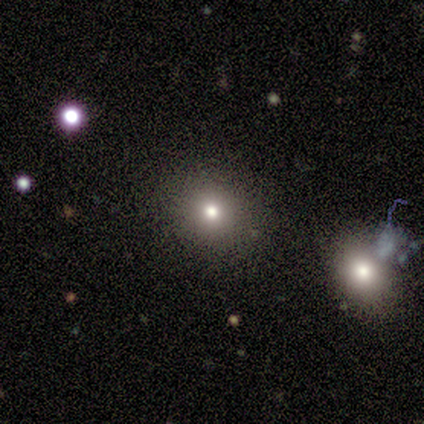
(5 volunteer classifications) A smooth galaxy with no disk features (60%) that is round (67%). Merging: none (80%).